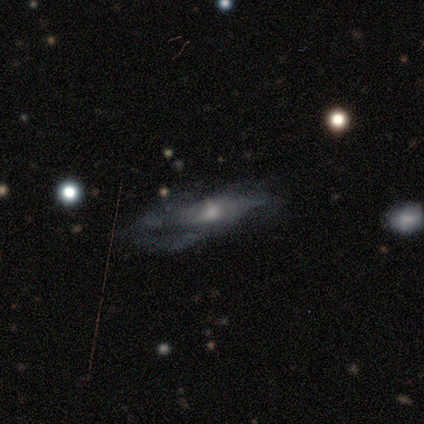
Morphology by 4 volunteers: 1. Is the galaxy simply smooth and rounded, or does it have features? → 50% featured or disk, 25% smooth, 25% star or artifact.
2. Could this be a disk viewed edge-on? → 50% yes (tied), 50% no (tied).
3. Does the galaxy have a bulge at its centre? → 100% rounded, 0% boxy, 0% none.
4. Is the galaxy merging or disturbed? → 67% major disturbance, 33% none, 0% minor disturbance, 0% merger.